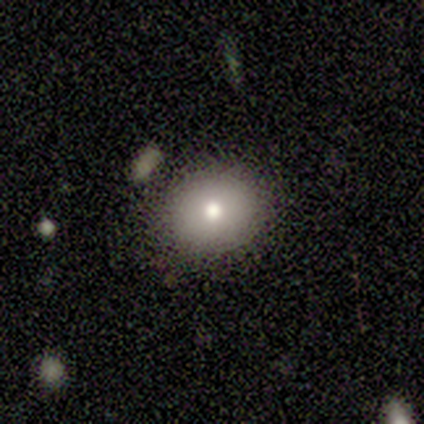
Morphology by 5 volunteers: smooth_or_featured: smooth (p=0.80) [alt: star or artifact p=0.20]
how_rounded: round (p=0.75) [alt: in between p=0.25]
merging: none (p=1.00)